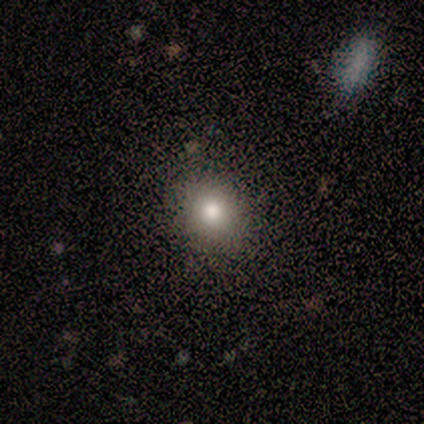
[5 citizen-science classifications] smooth-or-featured: smooth: 80% | featured or disk: 20% | star or artifact: 0%
  how-rounded: round: 75% | in between: 25% | cigar-shaped: 0%
  merging: none: 80% | merger: 20% | minor disturbance: 0% | major disturbance: 0%